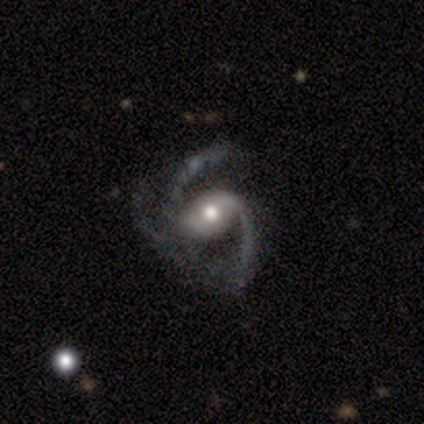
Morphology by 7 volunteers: Smooth or featured? featured or disk (86%)
Edge-on disk? no (100%)
Bar? no (67%)
Spiral arms? yes (100%)
Spiral winding? loose (50%)
Spiral arm count? 3 (67%)
Bulge size? moderate (67%)
Merging? none (83%)